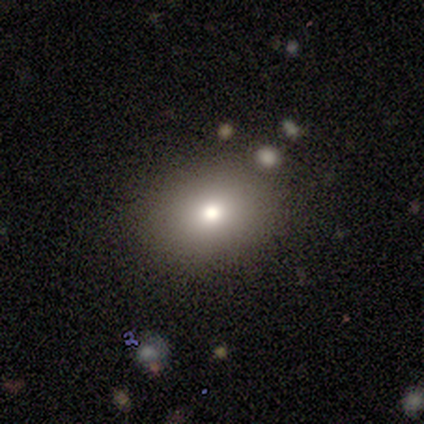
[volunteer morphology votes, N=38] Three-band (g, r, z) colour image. It shows a smooth galaxy with no disk features (79%) that is round (50%). Merging: none (76%).